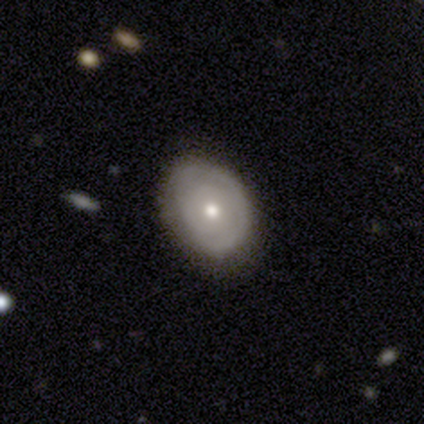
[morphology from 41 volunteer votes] This is possibly a featured or disk galaxy (46%). It is clearly not viewed edge-on (95%). Bar: clearly no (100%). Spiral arm pattern: likely no (72%). Central bulge: possibly moderate (56%). Merging: likely none (79%).